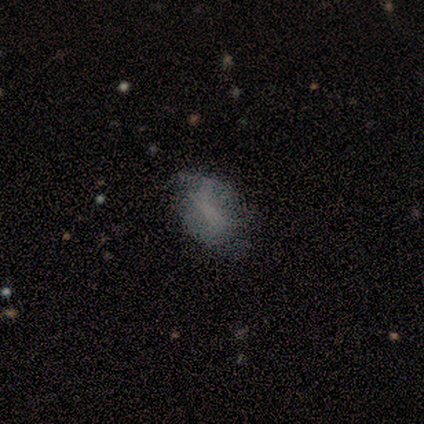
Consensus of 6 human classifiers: A smooth galaxy with no disk features (50%) that is in between round and cigar-shaped (100%). Merging: none (80%).